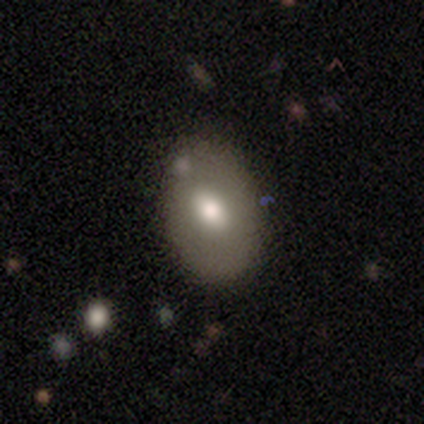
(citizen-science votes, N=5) Smooth or featured?
  - smooth: 80% *
  - featured or disk: 20%
  - star or artifact: 0%
How rounded?
  - round: 50% * (tied)
  - in between: 50% * (tied)
  - cigar-shaped: 0%
Merging?
  - none: 80% *
  - merger: 20%
  - minor disturbance: 0%
  - major disturbance: 0%